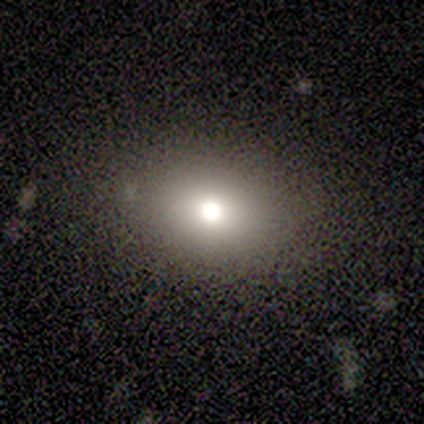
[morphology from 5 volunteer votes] This appears to be a smooth galaxy with no disk features (60%) that is in between round and cigar-shaped (100%). Merging: none (100%).